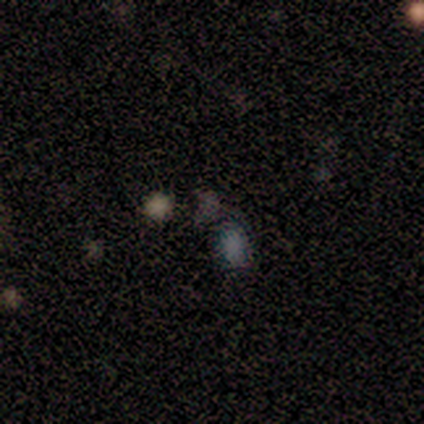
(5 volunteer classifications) smooth-or-featured: star or artifact: 60% | smooth: 40% | featured or disk: 0%